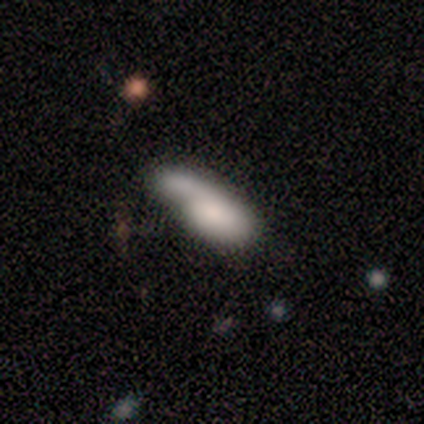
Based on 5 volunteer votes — Smooth or featured? 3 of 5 (60%) said smooth. How rounded? 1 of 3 (33%, tied with in between and cigar-shaped) said round. Merging? 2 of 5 (40%, tied with merger) said none.